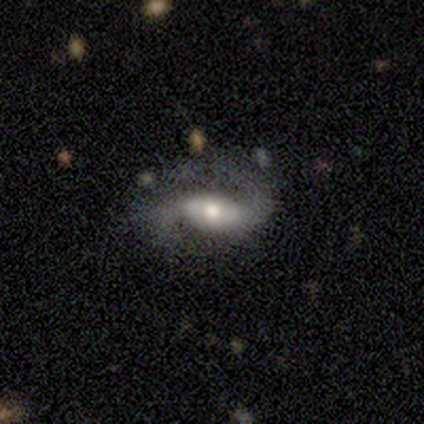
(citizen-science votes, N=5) smooth_or_featured: featured or disk (p=0.80) [alt: star or artifact p=0.20]
disk_edge_on: no (p=1.00)
bar: weak (p=0.75) [alt: no p=0.25]
has_spiral_arms: yes (p=1.00)
spiral_winding: medium (p=0.50) [tied with: loose p=0.50]
spiral_arm_count: 2 (p=1.00)
bulge_size: moderate (p=1.00)
merging: none (p=0.50) [alt: minor disturbance p=0.25]